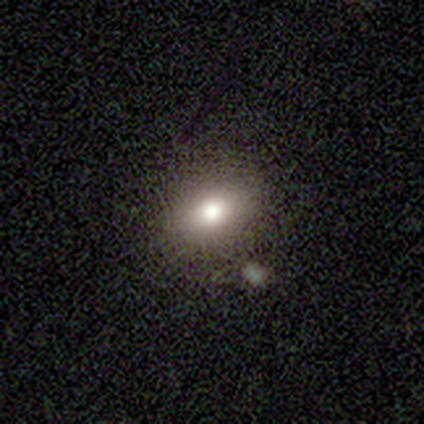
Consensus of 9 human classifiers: Smooth or featured? smooth (67%)
How rounded? in between (67%)
Merging? none (75%)